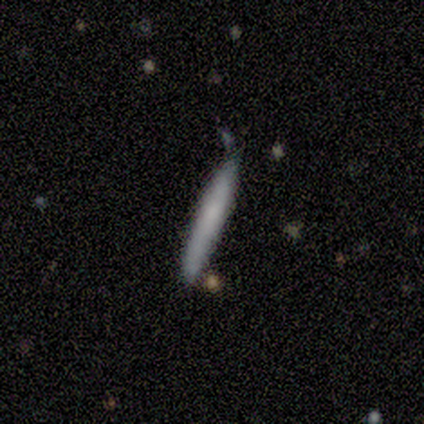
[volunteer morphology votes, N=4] Smooth or featured? 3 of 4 (75%) said smooth. How rounded? 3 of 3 (100%) said cigar-shaped. Merging? 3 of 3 (100%) said none.